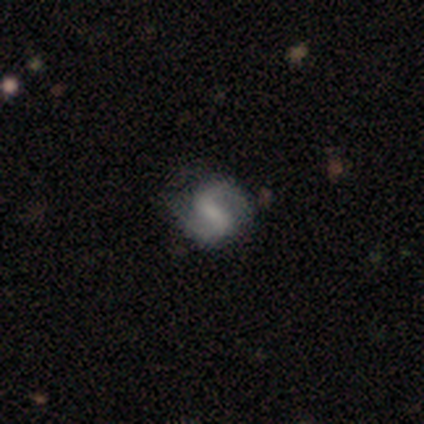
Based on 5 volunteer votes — Smooth or featured? 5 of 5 (100%) said featured or disk. Edge-on disk? 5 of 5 (100%) said no. Bar? 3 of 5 (60%) said strong. Spiral arms? 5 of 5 (100%) said yes. Spiral winding? 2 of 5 (40%, tied with loose) said medium. Spiral arm count? 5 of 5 (100%) said 2. Bulge size? 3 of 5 (60%) said small. Merging? 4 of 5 (80%) said none.